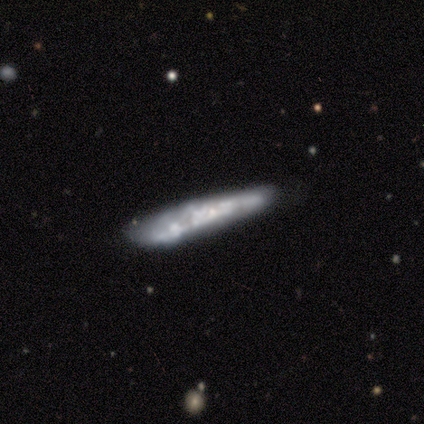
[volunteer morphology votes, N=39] This is likely a featured or disk galaxy (77%). It is likely viewed edge-on (63%). Edge-on bulge: likely none (74%). Merging: possibly none (53%).